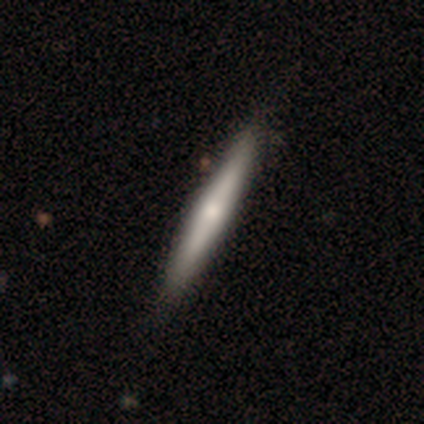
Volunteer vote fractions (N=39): A featured or disk galaxy (54%) viewed edge-on (90%) with a rounded central bulge (63%). Merging: none (61%).